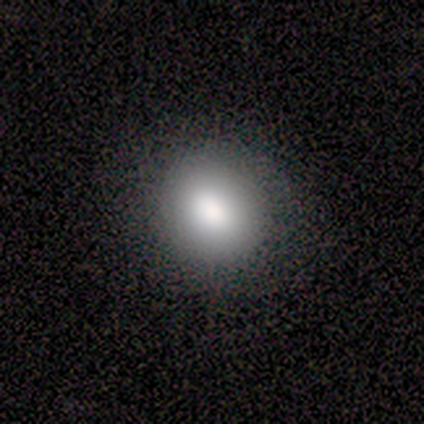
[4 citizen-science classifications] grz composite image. It shows a smooth galaxy with no disk features (100%) that is round (75%). Merging: none (75%).